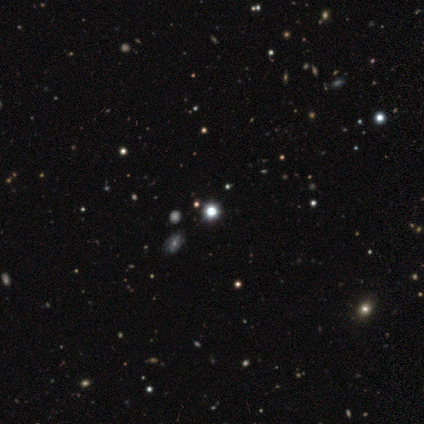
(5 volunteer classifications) Volunteers were most divided on "smooth or featured": star or artifact: 80%, smooth: 20%, featured or disk: 0%.